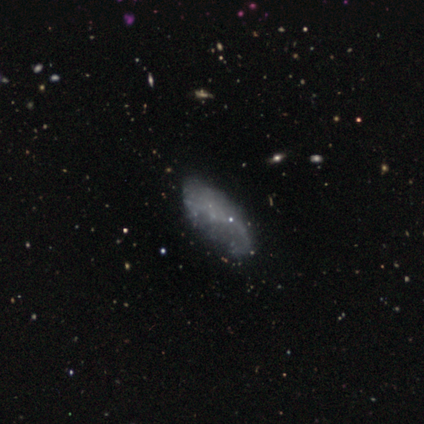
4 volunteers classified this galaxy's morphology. Smooth or featured? smooth (75%)
How rounded? in between (100%)
Merging? none (100%)